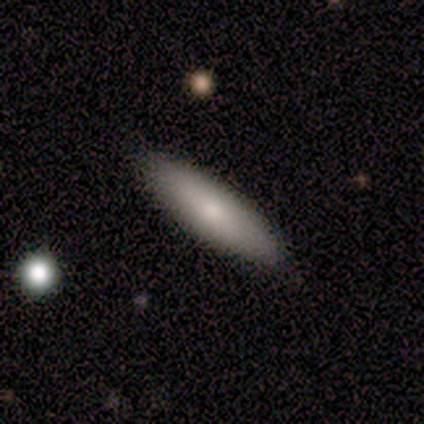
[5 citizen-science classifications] A smooth galaxy with no disk features (80%) that is cigar-shaped (75%). Merging: none (100%).